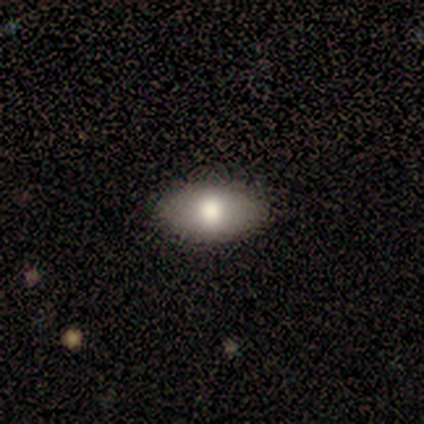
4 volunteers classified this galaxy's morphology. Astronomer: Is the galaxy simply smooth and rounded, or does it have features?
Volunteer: smooth — 75%.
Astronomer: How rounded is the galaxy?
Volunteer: in between — 100%.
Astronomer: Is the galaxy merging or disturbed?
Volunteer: none — 75%.